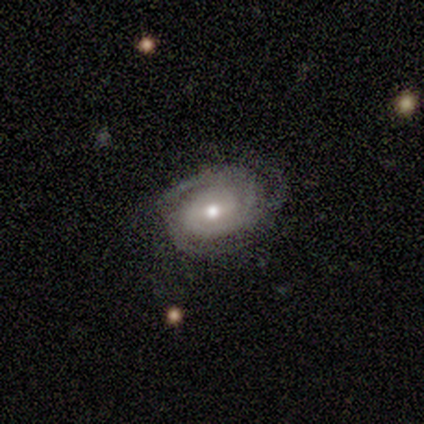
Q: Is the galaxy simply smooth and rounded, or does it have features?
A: featured or disk — 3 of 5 (60%).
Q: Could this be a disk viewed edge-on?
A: no — 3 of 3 (100%).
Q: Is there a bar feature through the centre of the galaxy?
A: weak — 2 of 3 (67%).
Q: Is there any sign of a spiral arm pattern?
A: yes — 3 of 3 (100%).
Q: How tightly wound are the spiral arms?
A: tight — 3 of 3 (100%).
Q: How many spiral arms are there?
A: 3 — 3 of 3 (100%).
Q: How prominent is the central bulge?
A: small — 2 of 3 (67%).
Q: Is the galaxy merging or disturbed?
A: none — 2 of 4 (50%, tied with major disturbance).